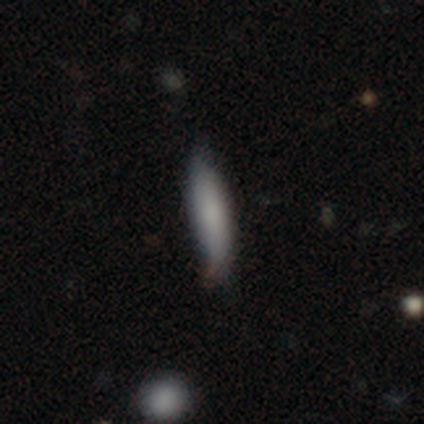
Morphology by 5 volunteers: Smooth or featured? 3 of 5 (60%) said smooth. How rounded? 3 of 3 (100%) said cigar-shaped. Merging? 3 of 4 (75%) said none.